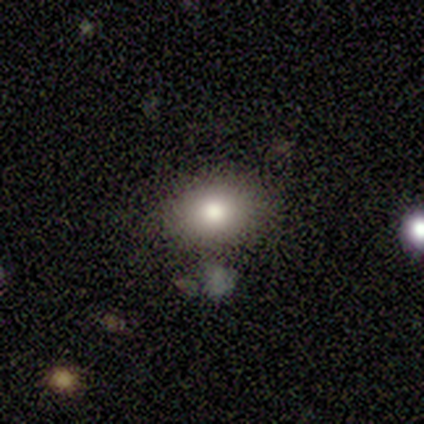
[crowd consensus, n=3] smooth_or_featured: smooth (p=0.67) [alt: featured or disk p=0.33]
how_rounded: in between (p=1.00)
merging: none (p=0.67) [alt: minor disturbance p=0.33]